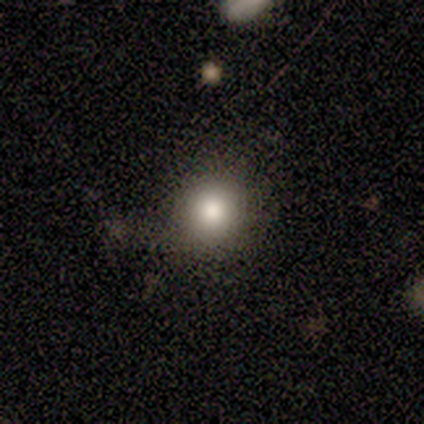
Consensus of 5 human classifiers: This is clearly a smooth galaxy (80%). How rounded: likely round (75%). Merging: clearly none (80%).